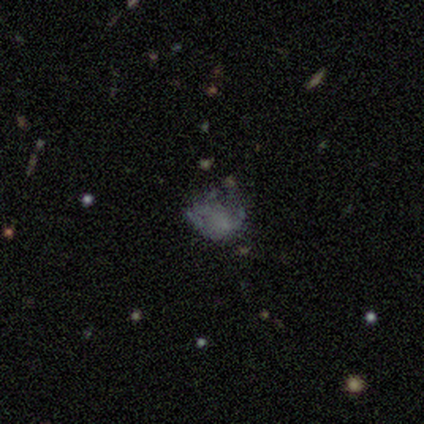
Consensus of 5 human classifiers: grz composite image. It shows a smooth galaxy with no disk features (40%, tied with featured or disk) that is round (50%, tied with in between). Merging: major disturbance (50%).